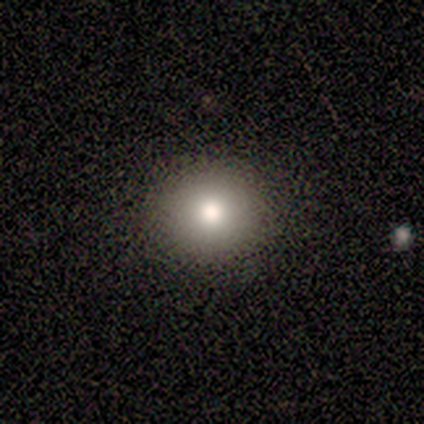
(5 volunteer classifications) Smooth or featured? smooth (80%)
How rounded? round (100%)
Merging? none (100%)